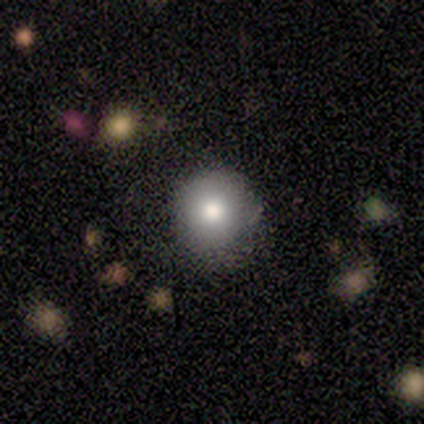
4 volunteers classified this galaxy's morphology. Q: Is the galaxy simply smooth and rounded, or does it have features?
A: smooth — 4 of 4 (100%).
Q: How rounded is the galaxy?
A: round — 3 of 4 (75%).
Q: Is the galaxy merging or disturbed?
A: none — 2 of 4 (50%).